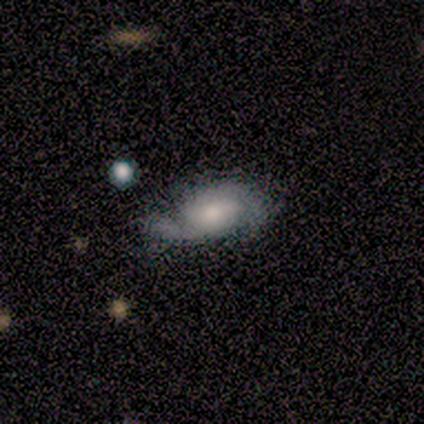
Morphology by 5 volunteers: smooth-or-featured: featured or disk: 100% | smooth: 0% | star or artifact: 0%
  disk-edge-on: no: 100% | yes: 0%
    bar: no: 60% | weak: 40% | strong: 0%
    has-spiral-arms: yes: 100% | no: 0%
      spiral-winding: tight: 40% (tied) | loose: 40% (tied) | medium: 20%
      spiral-arm-count: 2: 60% | can't tell: 40% | 1: 0% | 3: 0% | 4: 0% | more than 4: 0%
    bulge-size: moderate: 40% (tied) | small: 40% (tied) | large: 20% | dominant: 0% | none: 0%
  merging: none: 80% | minor disturbance: 20% | major disturbance: 0% | merger: 0%